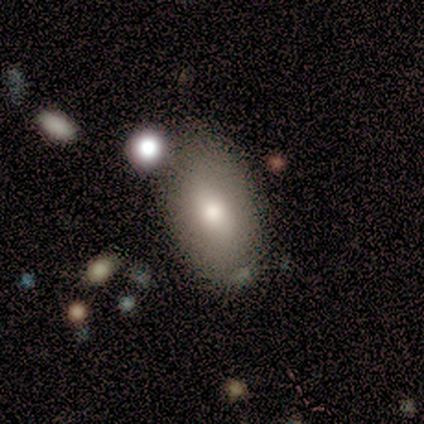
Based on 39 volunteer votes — Smooth or featured? 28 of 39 (72%) said smooth. How rounded? 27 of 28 (96%) said in between. Merging? 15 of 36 (42%) said none.